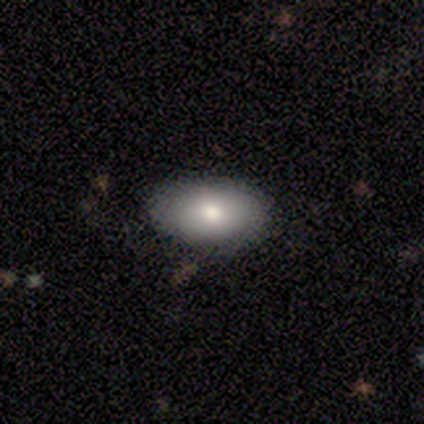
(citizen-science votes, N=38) smooth_or_featured: smooth (p=0.68) [alt: featured or disk p=0.21]
how_rounded: in between (p=0.92) [alt: round p=0.08]
merging: none (p=0.88) [alt: minor disturbance p=0.09]